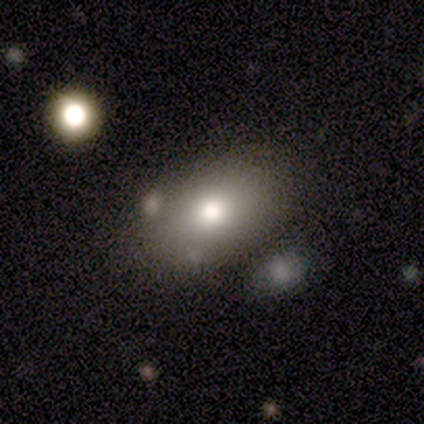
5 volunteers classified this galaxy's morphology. Volunteers were most divided on "smooth or featured": smooth: 60%, featured or disk: 40%, star or artifact: 0%. More confident: how rounded — in between (67%); merging — none (60%).